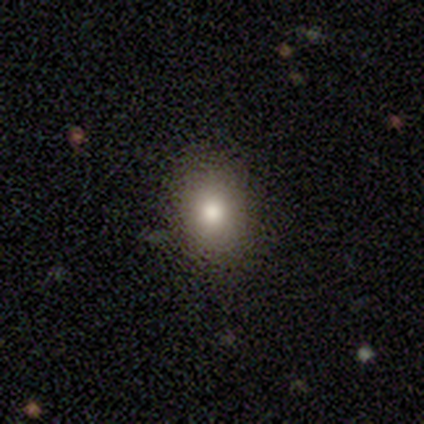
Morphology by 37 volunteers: type=smooth (81%); roundness=in between (57%); merging=none (88%).